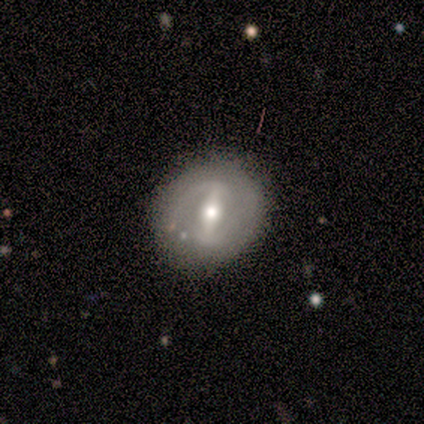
Morphology: type=featured or disk (75%); edge-on=no (100%); bar=strong (100%); spiral arms=no (100%); bulge=moderate (67%); merging=none (100%).